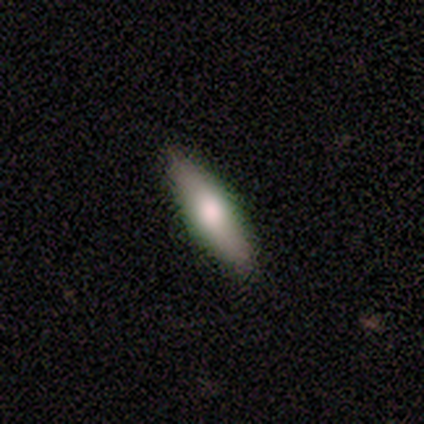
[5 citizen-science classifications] Smooth or featured?
  - smooth: 60% *
  - featured or disk: 40%
  - star or artifact: 0%
How rounded?
  - cigar-shaped: 67% *
  - in between: 33%
  - round: 0%
Merging?
  - none: 60% *
  - minor disturbance: 20%
  - merger: 20%
  - major disturbance: 0%